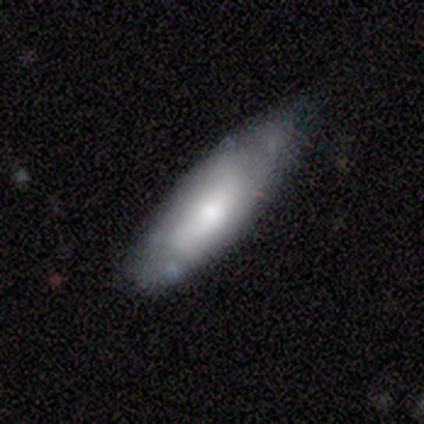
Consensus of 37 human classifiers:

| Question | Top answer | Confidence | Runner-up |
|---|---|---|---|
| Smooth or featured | smooth | 65% | featured or disk (35%) |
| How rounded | in between | 62% | cigar-shaped (33%) |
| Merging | none | 51% | minor disturbance (38%) |